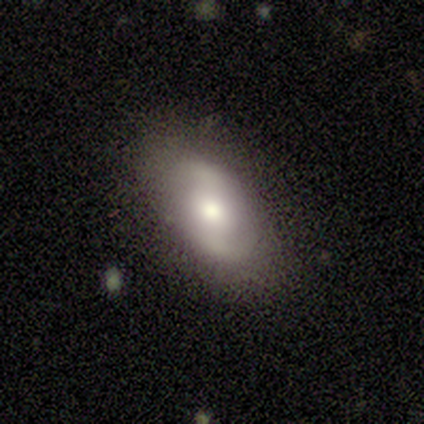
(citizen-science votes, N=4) Smooth or featured?
  - featured or disk: 75% *
  - star or artifact: 25%
  - smooth: 0%
Edge-on disk?
  - no: 67% *
  - yes: 33%
Bar?
  - no: 100% *
  - strong: 0%
  - weak: 0%
Spiral arms?
  - yes: 50% * (tied)
  - no: 50% * (tied)
Spiral winding?
  - tight: 100% *
  - medium: 0%
  - loose: 0%
Spiral arm count?
  - 2: 100% *
  - 1: 0%
  - 3: 0%
  - 4: 0%
  - more than 4: 0%
  - can't tell: 0%
Bulge size?
  - moderate: 100% *
  - dominant: 0%
  - large: 0%
  - small: 0%
  - none: 0%
Merging?
  - none: 100% *
  - minor disturbance: 0%
  - major disturbance: 0%
  - merger: 0%